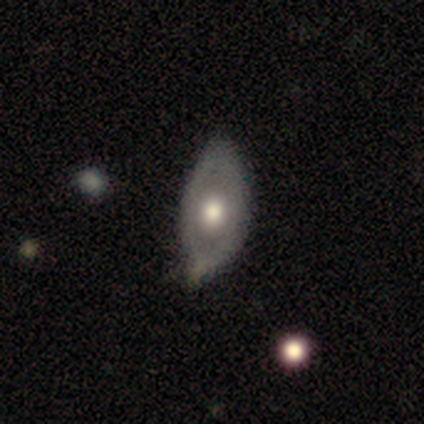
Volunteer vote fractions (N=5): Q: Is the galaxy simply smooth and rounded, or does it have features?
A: smooth — 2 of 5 (40%, tied with featured or disk).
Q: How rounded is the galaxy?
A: in between — 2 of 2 (100%).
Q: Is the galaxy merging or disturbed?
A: none — 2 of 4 (50%).